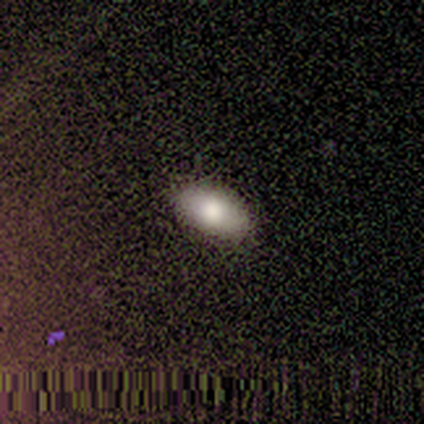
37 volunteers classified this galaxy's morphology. smooth 76%, featured or disk 14%, star or artifact 11%. Down the decision tree: how rounded — in between (96%); merging — none (94%).